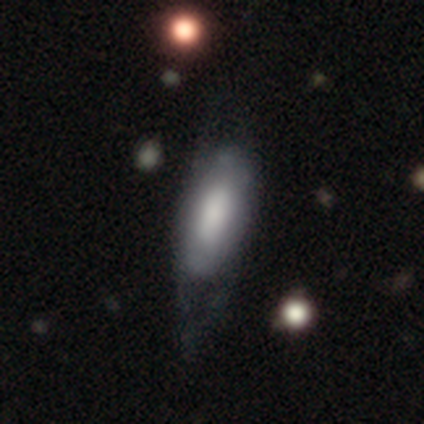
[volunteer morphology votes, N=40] This is likely a smooth galaxy (60%). How rounded: clearly in between (88%). Merging: marginally minor disturbance (25%).